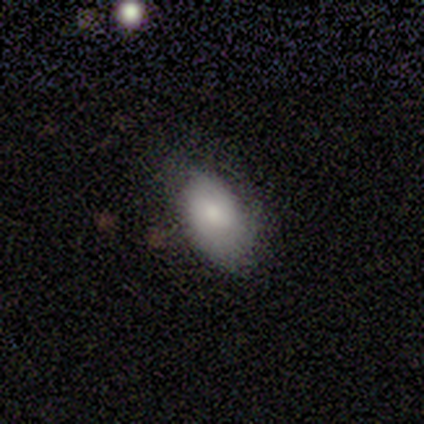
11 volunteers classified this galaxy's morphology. A smooth galaxy with no disk features (64%) that is in between round and cigar-shaped (100%). Merging: none (90%).